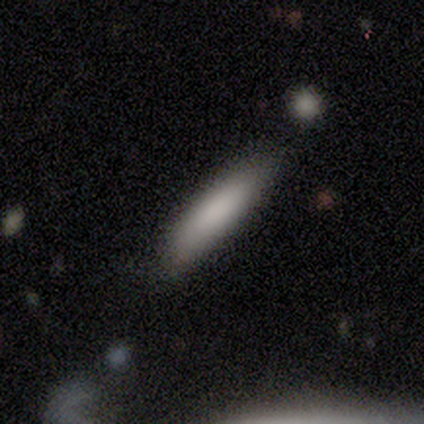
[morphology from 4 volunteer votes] This appears to be a smooth galaxy with no disk features (100%) that is cigar-shaped (75%). Merging: none (75%).